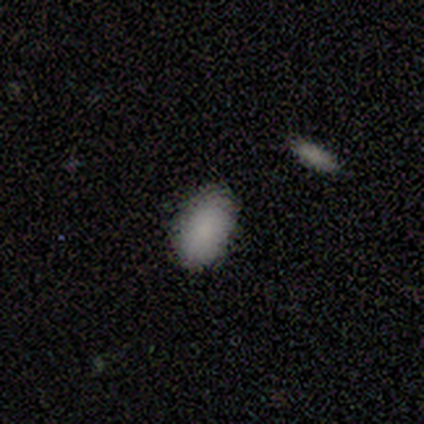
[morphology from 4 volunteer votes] This is clearly a smooth galaxy (100%). How rounded: clearly in between (100%). Merging: clearly none (100%).